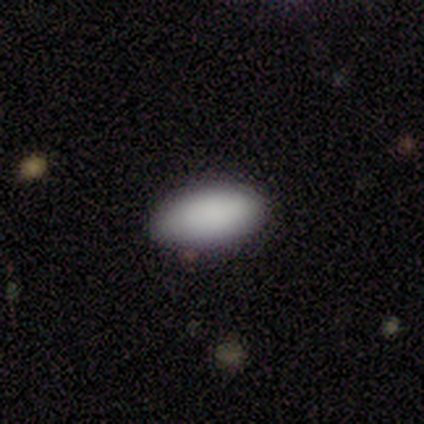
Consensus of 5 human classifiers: Q: Smooth or featured?
A: smooth (100%)
Q: How rounded?
A: in between (80%); runner-up: round (20%)
Q: Merging?
A: none (100%)